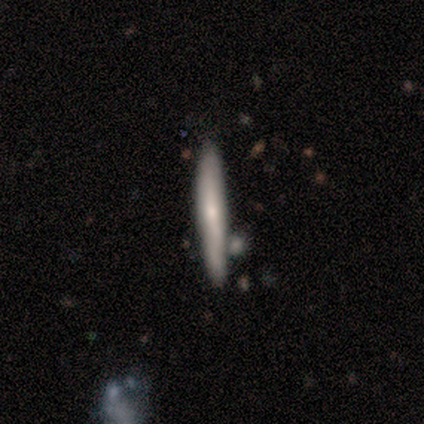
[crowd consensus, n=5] Morphology: type=smooth (80%); roundness=cigar-shaped (100%); merging=none (40%, tied with minor disturbance).